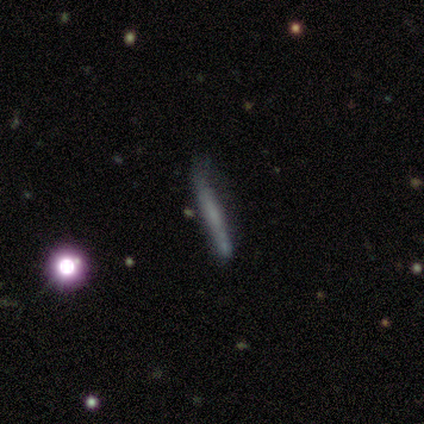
featured or disk 49%, smooth 41%, star or artifact 10%. Down the decision tree: edge-on disk — yes (89%); edge-on bulge — none (88%); merging — none (54%).